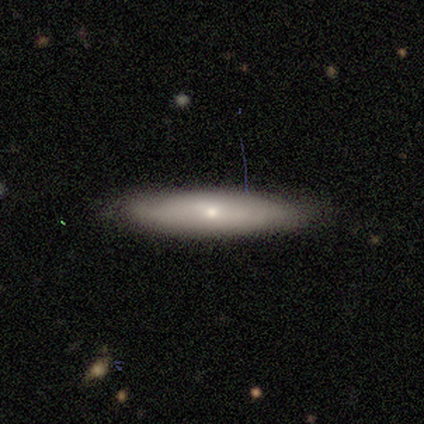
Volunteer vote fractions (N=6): Smooth or featured: featured or disk — 83% (smooth — 17%)
Edge-on disk: yes — 60% (no — 40%)
Edge-on bulge: rounded — 100%
Merging: none — 67% (minor disturbance — 17%)